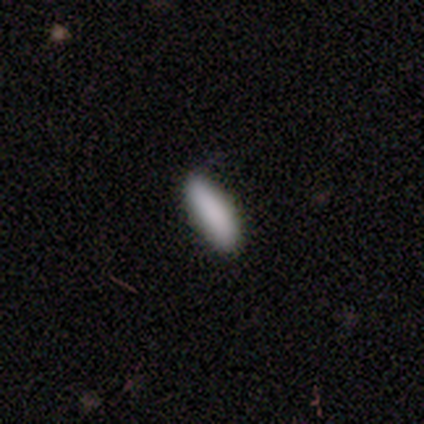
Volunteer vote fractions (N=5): A smooth galaxy with no disk features (100%) that is cigar-shaped (60%). Merging: none (100%).